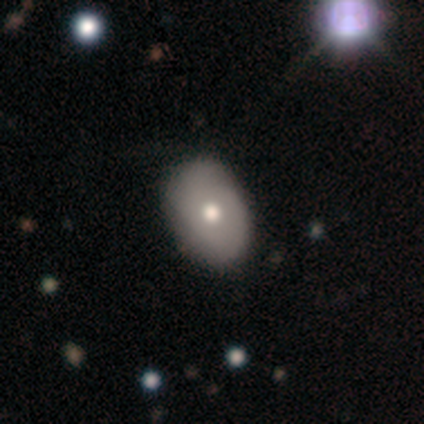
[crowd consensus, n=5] Smooth or featured: smooth — 100%
How rounded: in between — 80% (round — 20%)
Merging: none — 100%